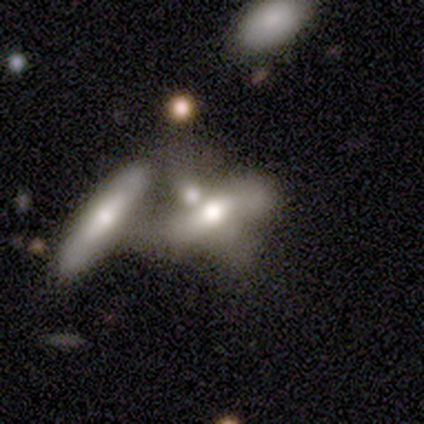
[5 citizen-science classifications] Morphology: type=smooth (60%); roundness=in between (67%); merging=merger (60%).